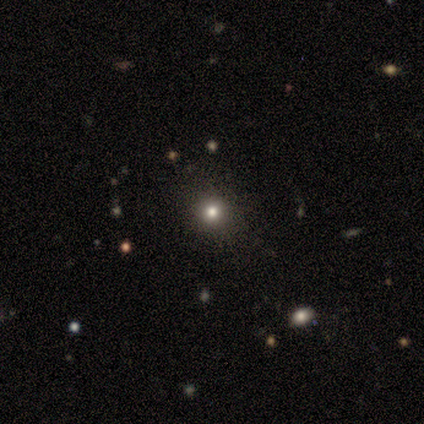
This is clearly a smooth galaxy (80%). How rounded: clearly round (100%). Merging: clearly none (100%).